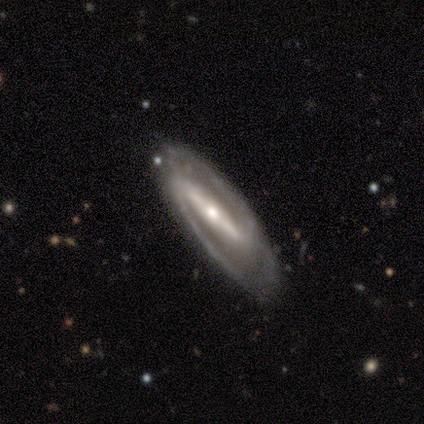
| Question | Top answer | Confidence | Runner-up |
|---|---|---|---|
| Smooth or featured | featured or disk | 100% | — |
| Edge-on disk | no | 60% | yes (40%) |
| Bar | strong | 67% | weak (33%) |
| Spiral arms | yes | 100% | — |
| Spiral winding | tight | 33% | tied: medium (33%), loose (33%) |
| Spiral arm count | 2 | 100% | — |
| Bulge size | moderate | 67% | small (33%) |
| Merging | none | 80% | minor disturbance (20%) |